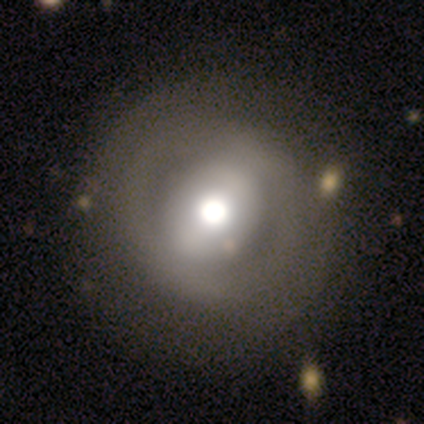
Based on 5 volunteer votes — A featured or disk galaxy (60%) with a strong bar (67%), no spiral arms (100%) and a large central bulge (67%).

Vote fractions:
- Smooth or featured? featured or disk: 60% / smooth: 20% / star or artifact: 20%
- Edge-on disk? no: 100% / yes: 0%
- Bar? strong: 67% / weak: 33% / no: 0%
- Spiral arms? no: 100% / yes: 0%
- Bulge size? large: 67% / moderate: 33% / dominant: 0% / small: 0% / none: 0%
- Merging? none: 50% / minor disturbance: 25% / merger: 25% / major disturbance: 0%